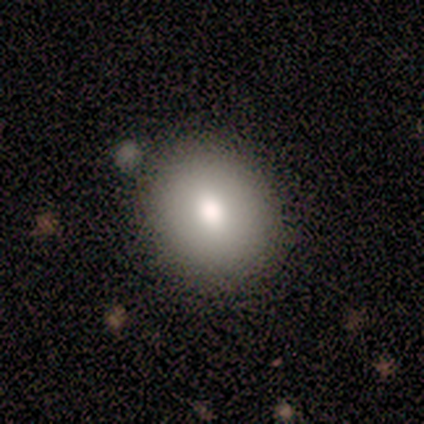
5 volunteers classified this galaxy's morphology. smooth-or-featured: smooth: 100% | featured or disk: 0% | star or artifact: 0%
  how-rounded: round: 60% | in between: 40% | cigar-shaped: 0%
  merging: none: 100% | minor disturbance: 0% | major disturbance: 0% | merger: 0%